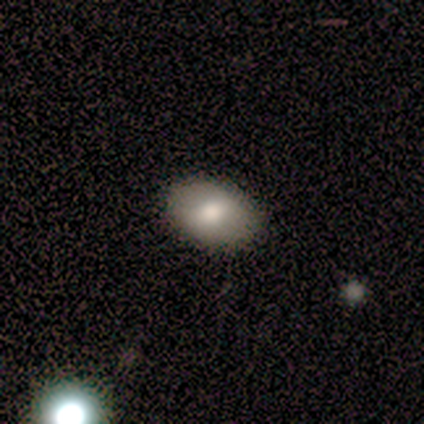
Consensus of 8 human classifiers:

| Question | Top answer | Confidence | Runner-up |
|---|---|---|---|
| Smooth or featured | smooth | 75% | featured or disk (25%) |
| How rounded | in between | 67% | round (33%) |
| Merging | none | 88% | minor disturbance (12%) |